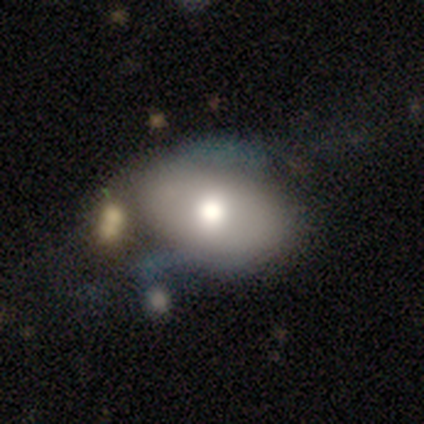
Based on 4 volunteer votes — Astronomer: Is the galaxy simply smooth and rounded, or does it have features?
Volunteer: featured or disk — 50%.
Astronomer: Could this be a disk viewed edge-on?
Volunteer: yes — 50%, tied with no at 50%.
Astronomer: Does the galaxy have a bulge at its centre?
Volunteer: rounded — 100%.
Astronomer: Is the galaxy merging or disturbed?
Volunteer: none — 67%.